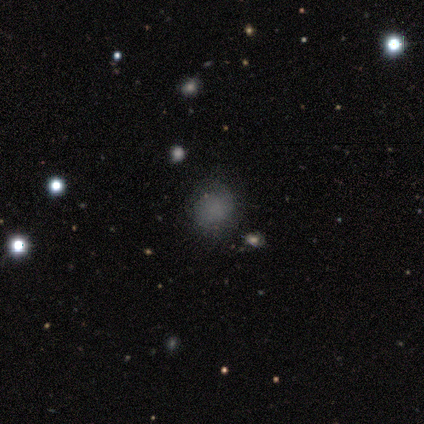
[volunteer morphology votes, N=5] This is likely a star or artifact rather than a galaxy (60%).